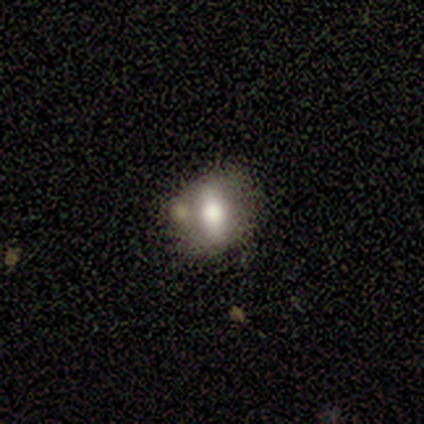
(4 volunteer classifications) A smooth galaxy with no disk features (75%) that is in between round and cigar-shaped (67%).

Vote fractions:
- Smooth or featured? smooth: 75% / featured or disk: 25% / star or artifact: 0%
- How rounded? in between: 67% / round: 33% / cigar-shaped: 0%
- Merging? none: 50% / minor disturbance: 25% / merger: 25% / major disturbance: 0%